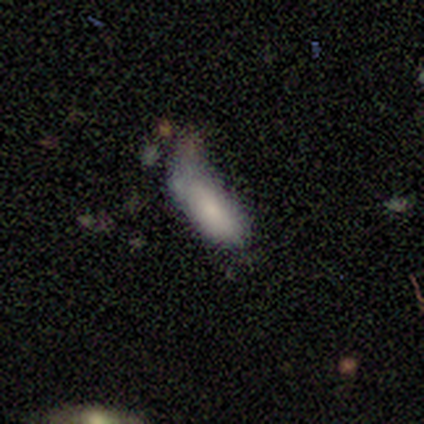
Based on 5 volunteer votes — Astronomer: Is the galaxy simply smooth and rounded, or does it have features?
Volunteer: smooth — 100%.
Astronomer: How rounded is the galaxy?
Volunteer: in between — 100%.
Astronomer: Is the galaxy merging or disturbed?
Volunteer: major disturbance — 60% (runner-up: minor disturbance, 40%).